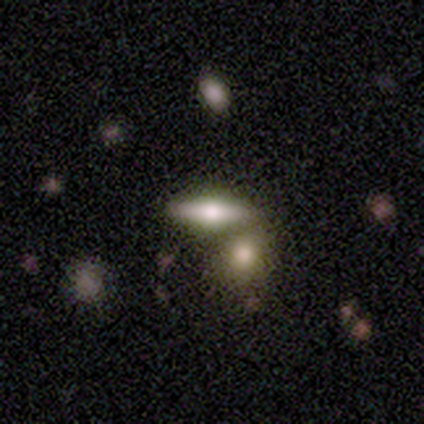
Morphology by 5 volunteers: This appears to be a featured or disk galaxy (60%) viewed edge-on (67%) with a rounded central bulge (100%). Merging: none (50%, tied with merger).